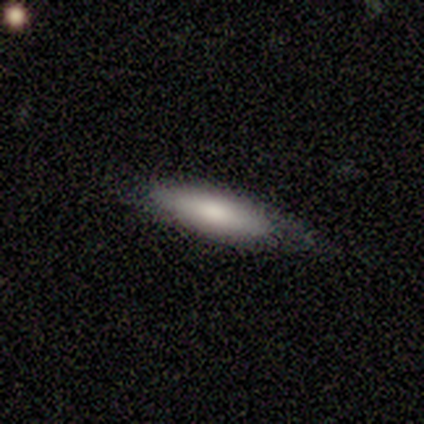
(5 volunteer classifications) Smooth or featured?
  - smooth: 100% *
  - featured or disk: 0%
  - star or artifact: 0%
How rounded?
  - cigar-shaped: 80% *
  - in between: 20%
  - round: 0%
Merging?
  - none: 60% *
  - minor disturbance: 40%
  - major disturbance: 0%
  - merger: 0%